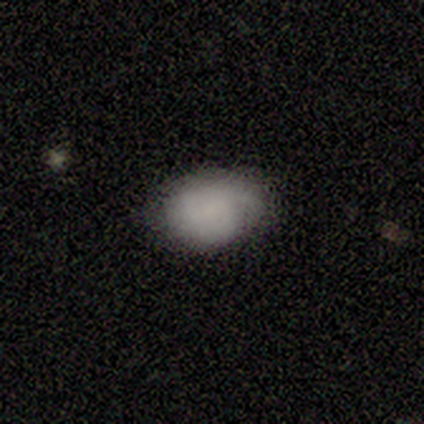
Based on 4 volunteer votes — Smooth or featured? 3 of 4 (75%) said smooth. How rounded? 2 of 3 (67%) said in between. Merging? 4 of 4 (100%) said none.